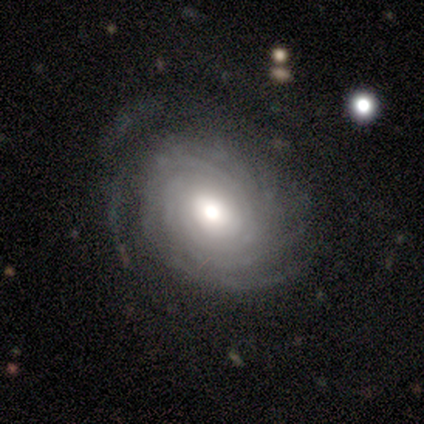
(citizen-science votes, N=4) Smooth or featured? 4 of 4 (100%) said featured or disk. Edge-on disk? 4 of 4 (100%) said no. Bar? 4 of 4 (100%) said no. Spiral arms? 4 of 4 (100%) said yes. Spiral winding? 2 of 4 (50%, tied with medium) said tight. Spiral arm count? 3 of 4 (75%) said can't tell. Bulge size? 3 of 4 (75%) said moderate. Merging? 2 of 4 (50%) said none.